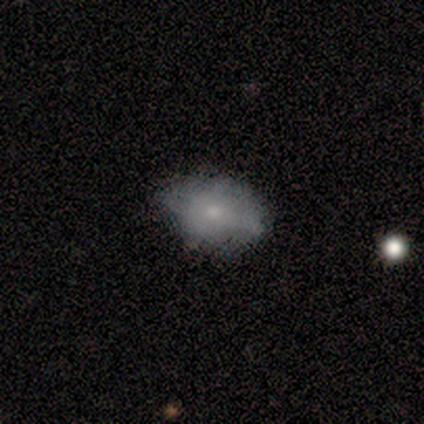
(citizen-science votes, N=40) Volunteers were most divided on "merging": none: 61%, minor disturbance: 37%, major disturbance: 3%, merger: 0%. More confident: how rounded — in between (96%); smooth or featured — smooth (65%).